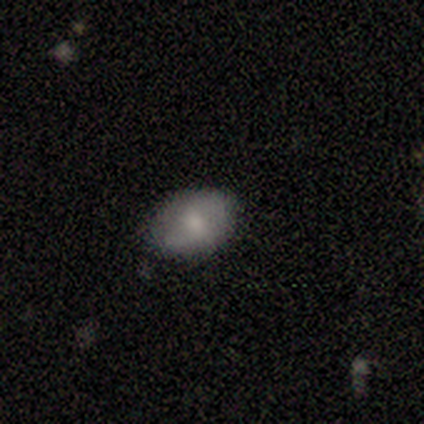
Smooth or featured? smooth (57%)
How rounded? in between (100%)
Merging? none (100%)